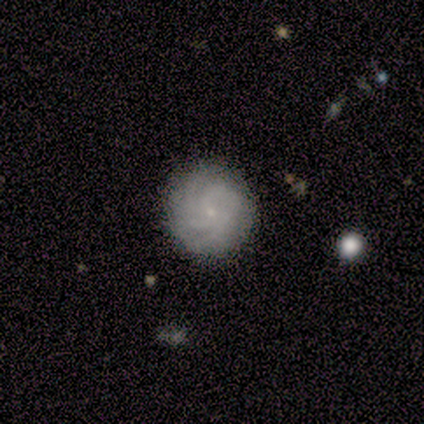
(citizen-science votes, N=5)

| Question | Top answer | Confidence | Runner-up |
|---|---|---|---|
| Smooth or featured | featured or disk | 100% | — |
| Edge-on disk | no | 100% | — |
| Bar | no | 100% | — |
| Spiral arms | yes | 100% | — |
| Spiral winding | tight | 60% | medium (40%) |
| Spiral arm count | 2 | 40% | 3 (20%) |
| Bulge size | small | 80% | moderate (20%) |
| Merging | none | 100% | — |